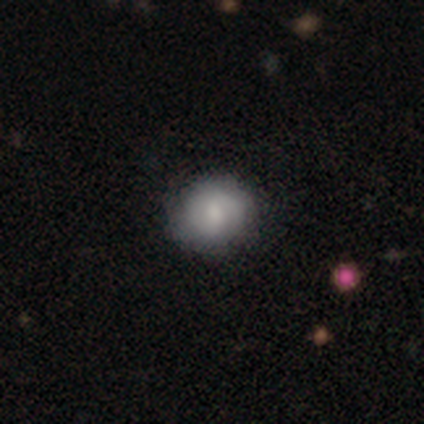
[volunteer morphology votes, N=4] A smooth galaxy with no disk features (50%) that is round (100%). Merging: none (100%).